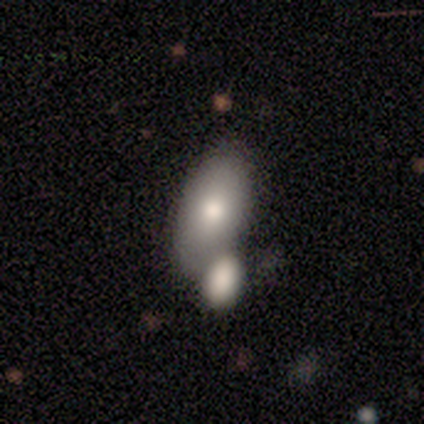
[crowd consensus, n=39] Smooth or featured? smooth (82%)
How rounded? in between (84%)
Merging? merger (45%)